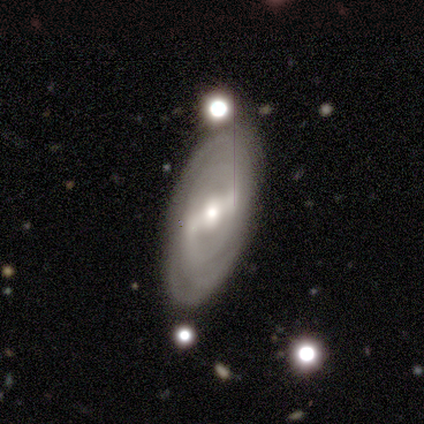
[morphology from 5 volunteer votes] This is clearly a featured or disk galaxy (80%). It is clearly not viewed edge-on (100%). Bar: likely strong (75%). Spiral arm pattern: clearly yes (100%). Spiral arm count: likely 2 (75%). Spiral winding: likely tight (75%). Central bulge: likely small (75%). Merging: clearly none (80%).